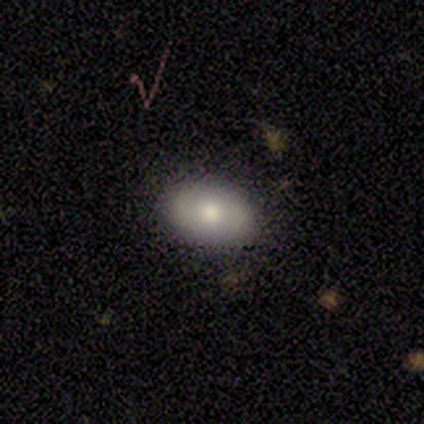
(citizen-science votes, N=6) Volunteers were most divided on "smooth or featured": smooth: 67%, featured or disk: 33%, star or artifact: 0%. More confident: how rounded — in between (100%); merging — none (100%).